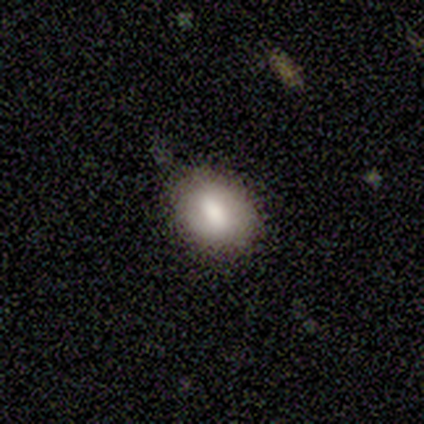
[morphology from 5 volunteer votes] type=smooth (100%); roundness=in between (80%); merging=none (60%).